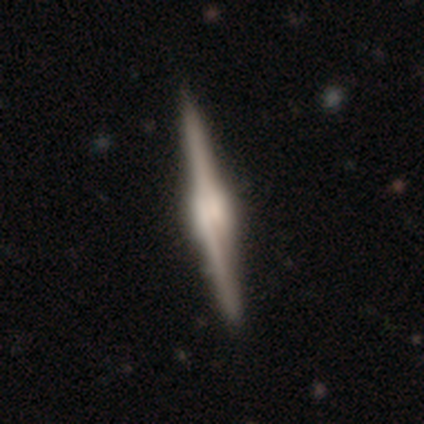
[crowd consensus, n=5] This is clearly a featured or disk galaxy (100%). It is clearly viewed edge-on (100%). Edge-on bulge: clearly rounded (80%). Merging: clearly none (100%).